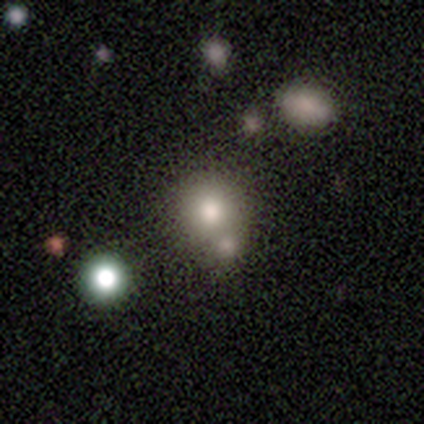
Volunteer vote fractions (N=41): This is likely a smooth galaxy (76%). How rounded: likely round (77%). Merging: likely none (61%).